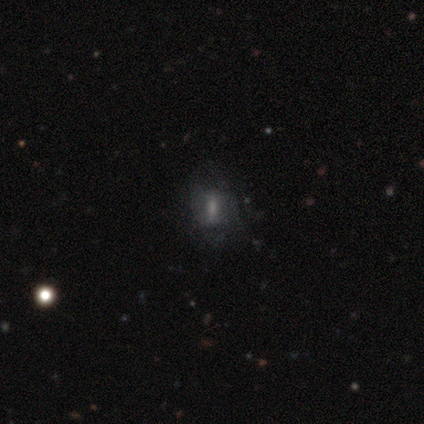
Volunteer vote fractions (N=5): Smooth or featured: featured or disk — 80% (star or artifact — 20%)
Edge-on disk: no — 75% (yes — 25%)
Bar: strong — 67% (no — 33%)
Spiral arms: no — 100%
Bulge size: none — 100%
Merging: none — 75% (major disturbance — 25%)